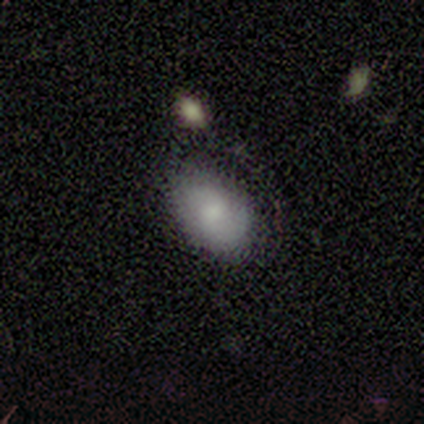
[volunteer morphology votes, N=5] This is clearly a smooth galaxy (80%). How rounded: likely in between (75%). Merging: marginally merger (40%).